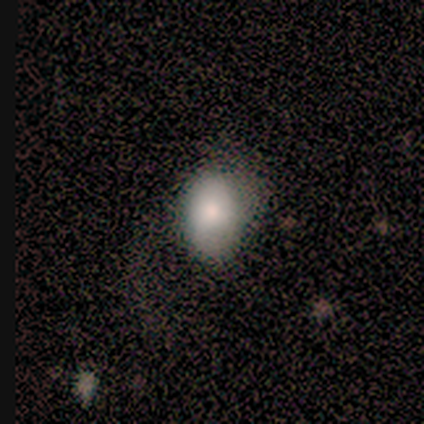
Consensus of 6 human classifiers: Overall: smooth (83%). How rounded: in between (60%; round 40%). Merging: none (80%).